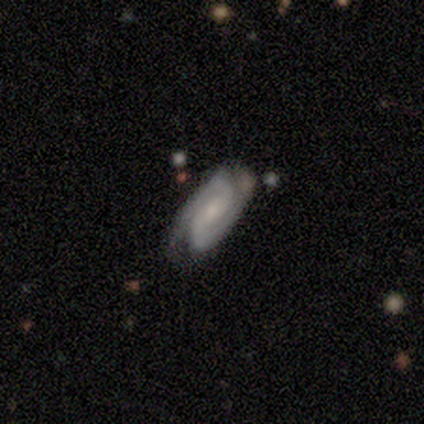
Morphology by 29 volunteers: Q: Smooth or featured?
A: featured or disk (93%); runner-up: smooth (3%)
Q: Edge-on disk?
A: no (96%); runner-up: yes (4%)
Q: Bar?
A: weak (38%); tied with: no (38%)
Q: Spiral arms?
A: yes (96%); runner-up: no (4%)
Q: Spiral winding?
A: tight (68%); runner-up: medium (28%)
Q: Spiral arm count?
A: 2 (96%); runner-up: 1 (4%)
Q: Bulge size?
A: small (62%); runner-up: moderate (31%)
Q: Merging?
A: none (68%); runner-up: minor disturbance (21%)